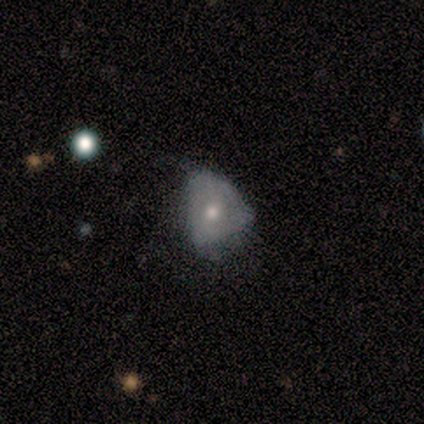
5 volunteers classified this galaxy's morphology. Volunteers were most divided on "smooth or featured": featured or disk: 60%, smooth: 40%, star or artifact: 0%. More confident: edge-on disk — no (100%); bar — no (67%); spiral arms — no (67%); bulge size — moderate (67%); merging — minor disturbance (60%).